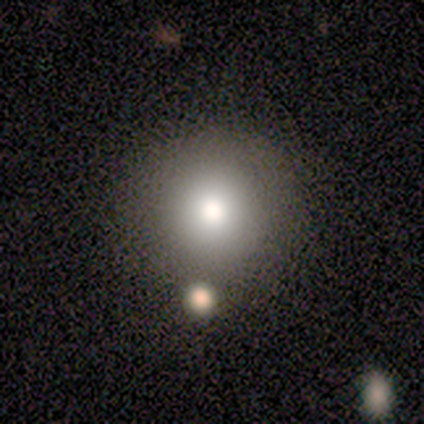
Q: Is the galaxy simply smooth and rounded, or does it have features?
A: smooth — 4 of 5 (80%).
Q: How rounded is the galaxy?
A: round — 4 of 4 (100%).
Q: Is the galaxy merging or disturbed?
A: none — 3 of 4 (75%).